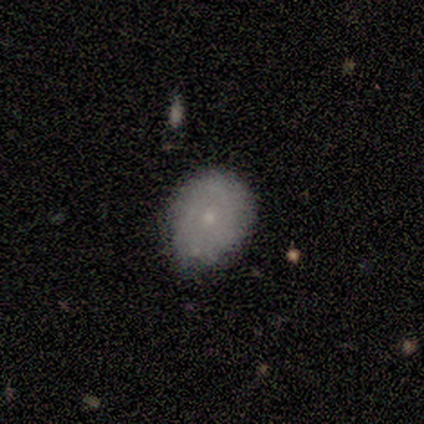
Smooth or featured? 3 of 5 (60%) said smooth. How rounded? 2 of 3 (67%) said in between. Merging? 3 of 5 (60%) said none.